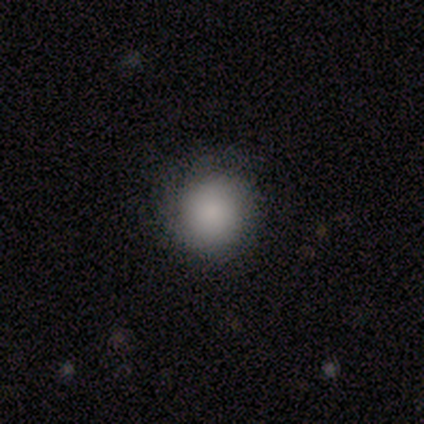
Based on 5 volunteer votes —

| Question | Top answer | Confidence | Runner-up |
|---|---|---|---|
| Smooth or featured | smooth | 100% | — |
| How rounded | round | 100% | — |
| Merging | none | 100% | — |